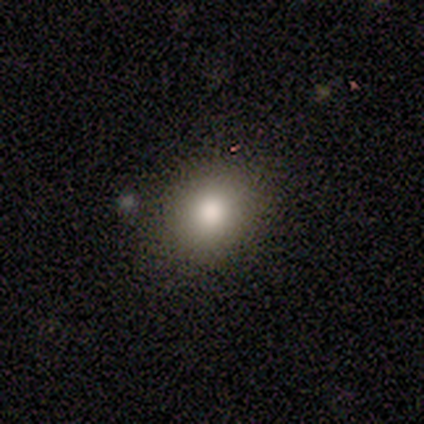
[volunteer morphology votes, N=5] This appears to be a smooth galaxy with no disk features (80%) that is in between round and cigar-shaped (75%). Merging: none (80%).